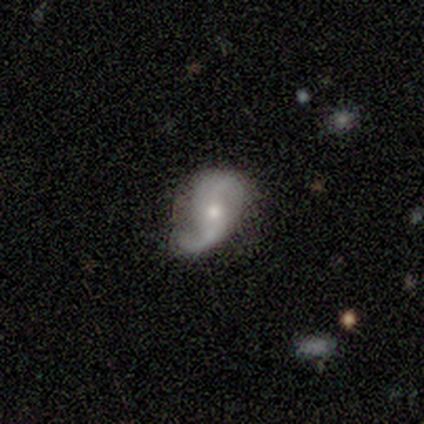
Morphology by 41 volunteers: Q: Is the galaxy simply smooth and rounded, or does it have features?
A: featured or disk — 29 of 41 (71%).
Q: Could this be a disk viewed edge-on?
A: no — 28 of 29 (97%).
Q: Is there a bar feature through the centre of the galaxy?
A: no — 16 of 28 (57%).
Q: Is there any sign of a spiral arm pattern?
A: yes — 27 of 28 (96%).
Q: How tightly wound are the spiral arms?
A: loose — 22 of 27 (81%).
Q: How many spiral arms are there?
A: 2 — 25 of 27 (93%).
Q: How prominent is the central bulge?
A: small — 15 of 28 (54%).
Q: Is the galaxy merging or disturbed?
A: none — 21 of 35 (60%).